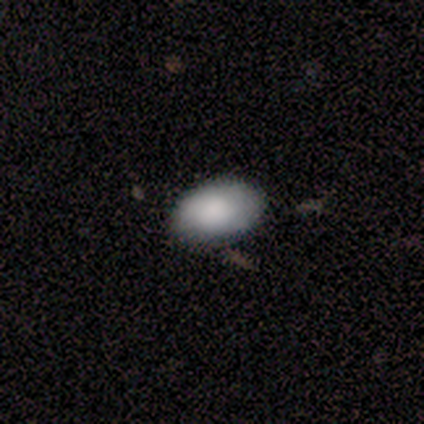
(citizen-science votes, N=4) smooth_or_featured: smooth (p=0.75) [alt: featured or disk p=0.25]
how_rounded: in between (p=1.00)
merging: none (p=0.50) [alt: minor disturbance p=0.25]